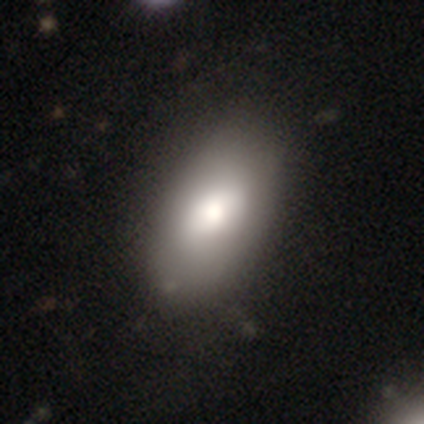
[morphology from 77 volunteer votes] Smooth or featured?
  - smooth: 79% *
  - featured or disk: 17%
  - star or artifact: 4%
How rounded?
  - in between: 90% *
  - round: 8%
  - cigar-shaped: 2%
Merging?
  - none: 64% *
  - minor disturbance: 20%
  - major disturbance: 0%
  - merger: 0%